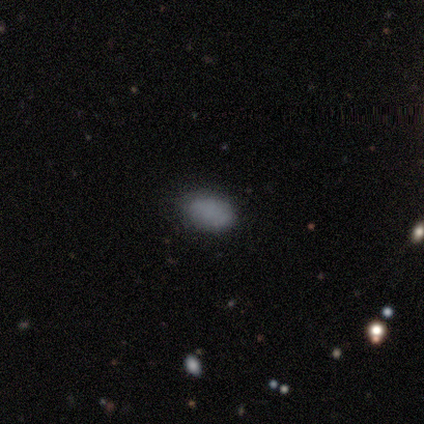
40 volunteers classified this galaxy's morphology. smooth 92%, star or artifact 5%, featured or disk 2%. Down the decision tree: how rounded — in between (92%); merging — none (82%).